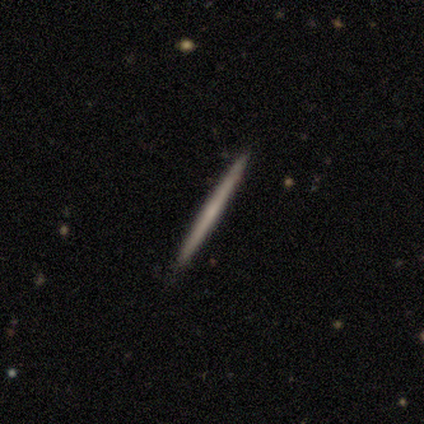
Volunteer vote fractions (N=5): Volunteers were most divided on "edge-on bulge": rounded: 50%, boxy: 25%, none: 25%. More confident: edge-on disk — yes (100%); merging — none (100%); smooth or featured — featured or disk (80%).